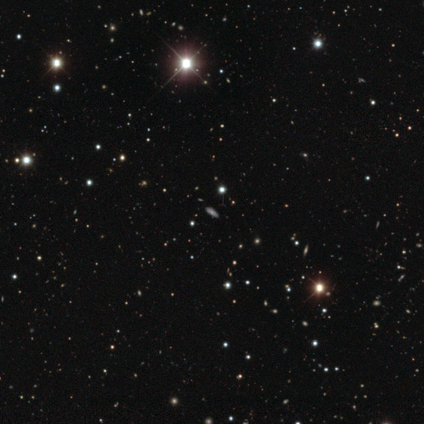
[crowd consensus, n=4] Volunteers were most divided on "smooth or featured": star or artifact: 75%, smooth: 25%, featured or disk: 0%.